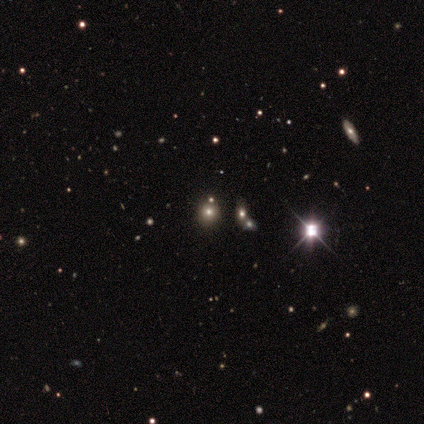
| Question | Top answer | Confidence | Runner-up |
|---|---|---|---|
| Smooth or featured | star or artifact | 56% | smooth (22%) |